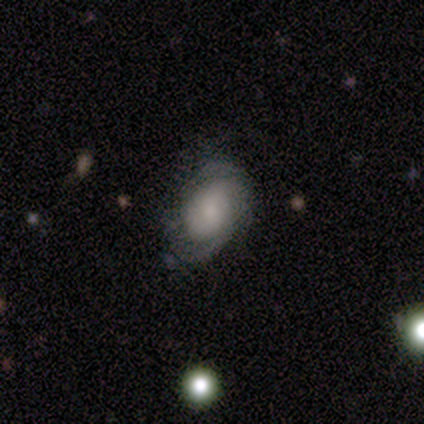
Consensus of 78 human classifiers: Overall: featured or disk (68%; smooth 28%). Edge-on disk: no (100%). Bar: no (79%). Spiral arms: yes (87%). Spiral arm count: 2 (52%; can't tell 22%). Spiral winding: tight (48%; medium 39%). Bulge size: small (40%; moderate 28%). Merging: none (57%; minor disturbance 35%).